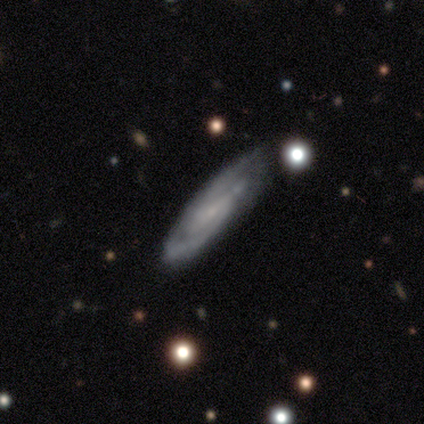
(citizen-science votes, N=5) Q: Smooth or featured?
A: featured or disk (100%)
Q: Edge-on disk?
A: no (80%); runner-up: yes (20%)
Q: Bar?
A: weak (75%); runner-up: no (25%)
Q: Spiral arms?
A: yes (100%)
Q: Spiral winding?
A: tight (50%); tied with: medium (50%)
Q: Spiral arm count?
A: 2 (75%); runner-up: can't tell (25%)
Q: Bulge size?
A: small (75%); runner-up: none (25%)
Q: Merging?
A: none (60%); runner-up: minor disturbance (40%)